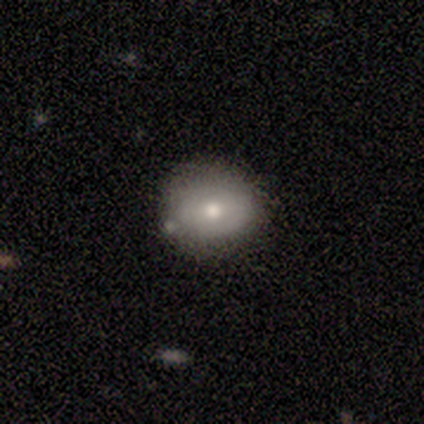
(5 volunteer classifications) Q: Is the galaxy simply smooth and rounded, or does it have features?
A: smooth — 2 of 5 (40%, tied with featured or disk).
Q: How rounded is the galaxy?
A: round — 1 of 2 (50%, tied with in between).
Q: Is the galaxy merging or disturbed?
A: none — 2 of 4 (50%, tied with minor disturbance).